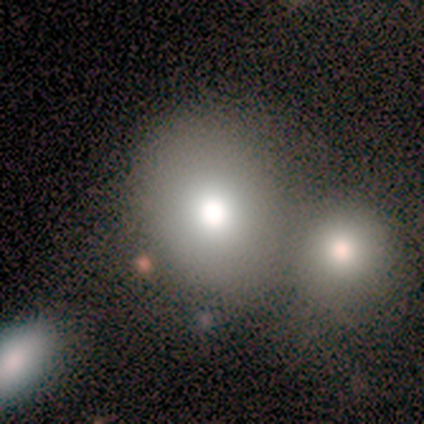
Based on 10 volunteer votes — Overall: smooth (70%). How rounded: in between (86%). Merging: merger (44%; minor disturbance 33%).